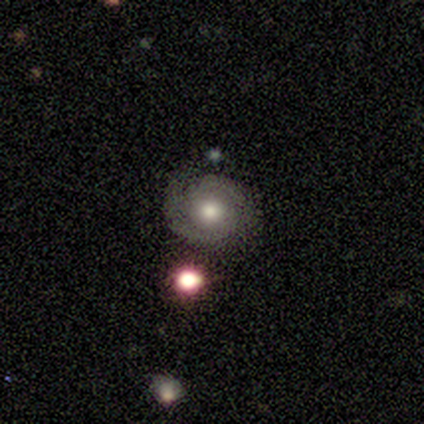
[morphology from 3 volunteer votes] This is marginally a smooth galaxy (33%, tied with featured or disk and star or artifact). How rounded: clearly round (100%). Merging: clearly none (100%).